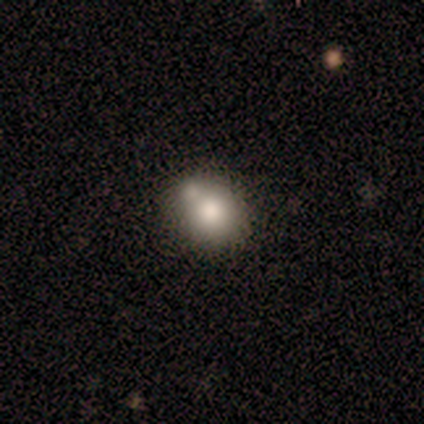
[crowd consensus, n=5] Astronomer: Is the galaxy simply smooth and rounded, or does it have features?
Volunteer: smooth — 80%.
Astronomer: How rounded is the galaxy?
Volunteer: round — 50%, tied with in between at 50%.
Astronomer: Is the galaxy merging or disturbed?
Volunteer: minor disturbance — 60%.